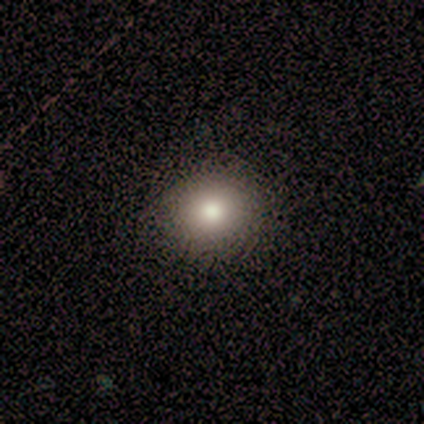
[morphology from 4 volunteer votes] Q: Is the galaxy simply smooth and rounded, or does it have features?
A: smooth — 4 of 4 (100%).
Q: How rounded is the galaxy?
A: round — 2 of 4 (50%, tied with in between).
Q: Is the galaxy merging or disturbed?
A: none — 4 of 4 (100%).